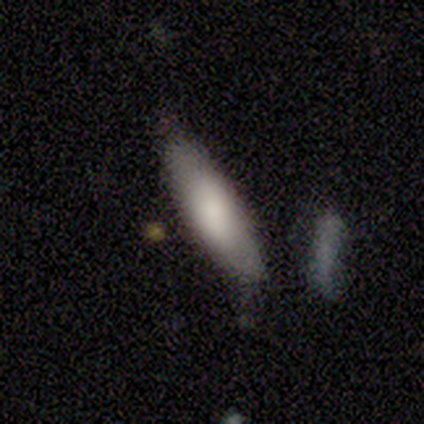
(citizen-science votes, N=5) Overall: smooth (80%). How rounded: cigar-shaped (75%). Merging: none (60%; minor disturbance 40%).